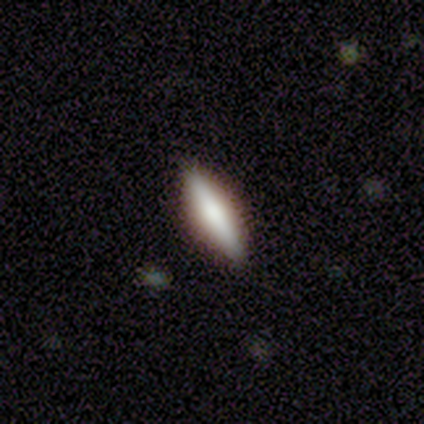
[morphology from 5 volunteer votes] A smooth galaxy with no disk features (80%) that is cigar-shaped (100%). Merging: none (100%).